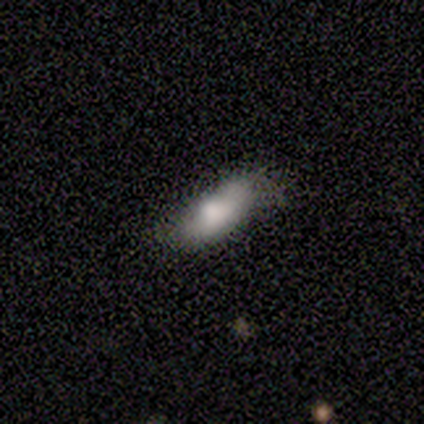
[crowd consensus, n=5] This appears to be a smooth galaxy with no disk features (40%, tied with star or artifact) that is in between round and cigar-shaped (100%). Merging: minor disturbance (67%).